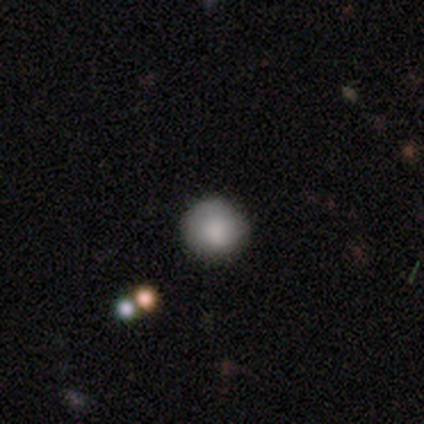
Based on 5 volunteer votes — smooth 80%, star or artifact 20%, featured or disk 0%. Down the decision tree: how rounded — round (100%); merging — none (50%).